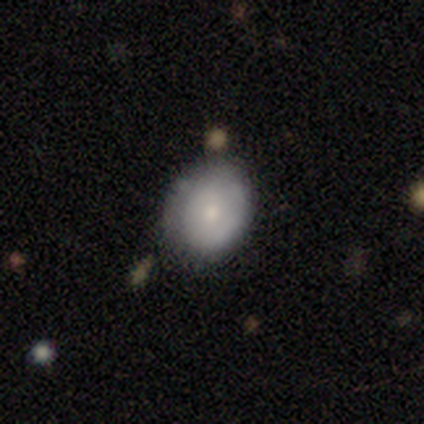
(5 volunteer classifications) This is clearly a smooth galaxy (100%). How rounded: likely in between (60%). Merging: likely none (60%).